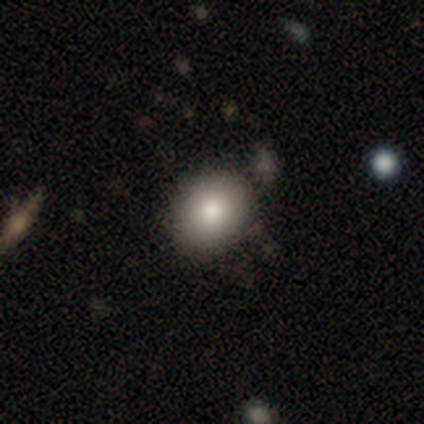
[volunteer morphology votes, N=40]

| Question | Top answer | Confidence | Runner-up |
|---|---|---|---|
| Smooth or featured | smooth | 88% | star or artifact (8%) |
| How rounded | in between | 51% | round (49%) |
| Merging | none | 84% | minor disturbance (11%) |